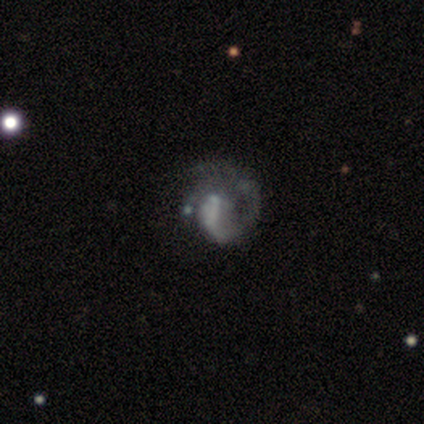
Volunteers were most divided on "spiral winding" (2-way tie): tight: 50%, medium: 50%, loose: 0%. More confident: smooth or featured — featured or disk (100%); edge-on disk — no (100%); bar — no (100%); spiral arms — yes (100%); spiral arm count — 1 (75%); bulge size — small (75%); merging — none (50%).